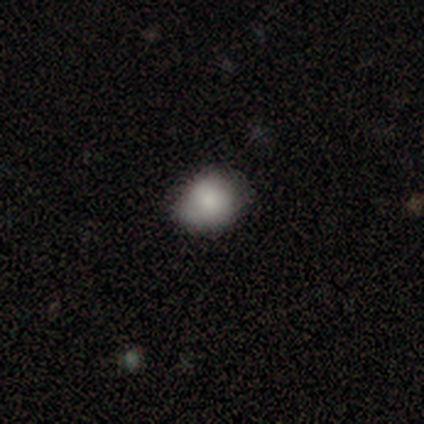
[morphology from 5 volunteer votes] Q: Smooth or featured?
A: smooth (60%); runner-up: featured or disk (40%)
Q: How rounded?
A: round (67%); runner-up: in between (33%)
Q: Merging?
A: none (100%)